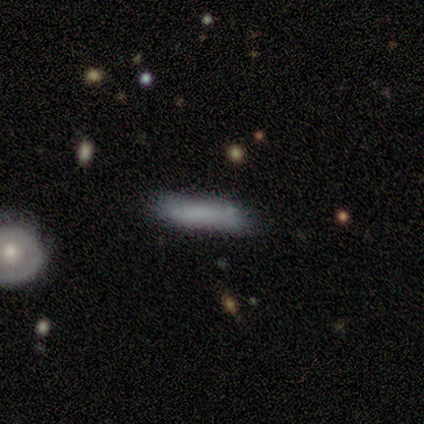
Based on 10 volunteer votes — smooth-or-featured: smooth: 60% | featured or disk: 30% | star or artifact: 10%
  how-rounded: cigar-shaped: 83% | in between: 17% | round: 0%
  merging: none: 78% | minor disturbance: 22% | major disturbance: 0% | merger: 0%